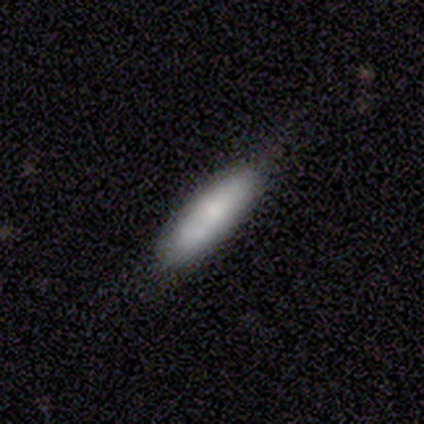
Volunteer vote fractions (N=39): Morphology: type=smooth (69%); roundness=cigar-shaped (52%); merging=none (62%).